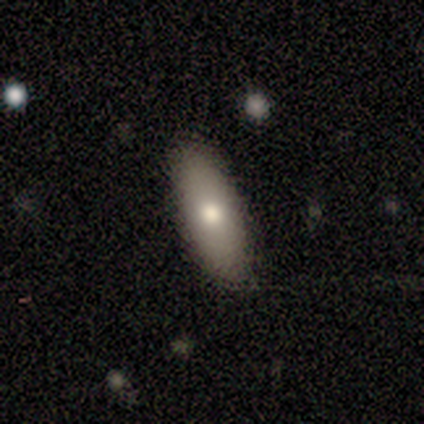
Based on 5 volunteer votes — smooth-or-featured: smooth: 60% | featured or disk: 40% | star or artifact: 0%
  how-rounded: in between: 100% | round: 0% | cigar-shaped: 0%
  merging: none: 80% | major disturbance: 20% | minor disturbance: 0% | merger: 0%